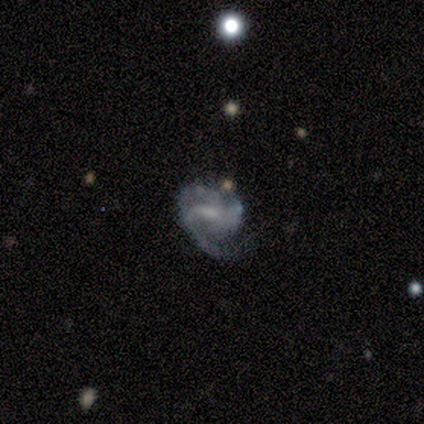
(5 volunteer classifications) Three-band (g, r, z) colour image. It shows a featured or disk galaxy (80%) with a weak bar (75%), 1 (100%) loose (100%) spiral arms (75%) and no central bulge (50%). Merging: major disturbance (80%).